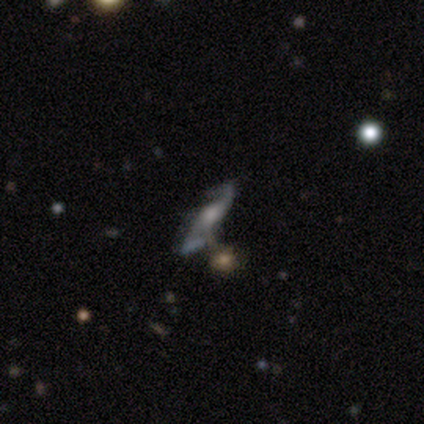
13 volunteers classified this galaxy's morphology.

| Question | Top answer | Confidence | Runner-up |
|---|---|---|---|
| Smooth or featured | featured or disk | 77% | star or artifact (15%) |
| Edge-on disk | no | 90% | yes (10%) |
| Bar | no | 56% | strong (22%) |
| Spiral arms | yes | 100% | — |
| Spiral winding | loose | 67% | medium (22%) |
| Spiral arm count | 2 | 100% | — |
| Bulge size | moderate | 78% | large (11%) |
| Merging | none | 73% | merger (18%) |